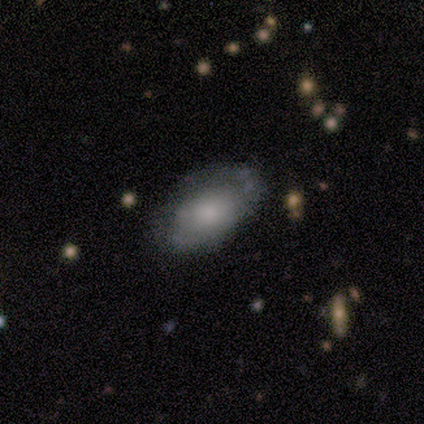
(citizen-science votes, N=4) Overall: featured or disk (100%). Edge-on disk: no (100%). Bar: no (100%). Spiral arms: yes (50%, tied with no). Spiral arm count: can't tell (100%). Spiral winding: tight (50%, tied with medium). Bulge size: small (75%). Merging: none (50%, tied with minor disturbance).